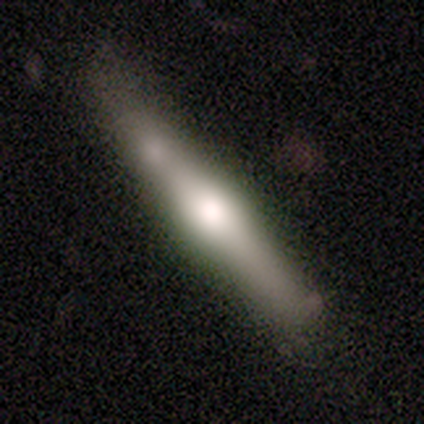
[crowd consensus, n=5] A featured or disk galaxy (80%) viewed edge-on (100%) with a rounded central bulge (100%). Merging: none (80%).